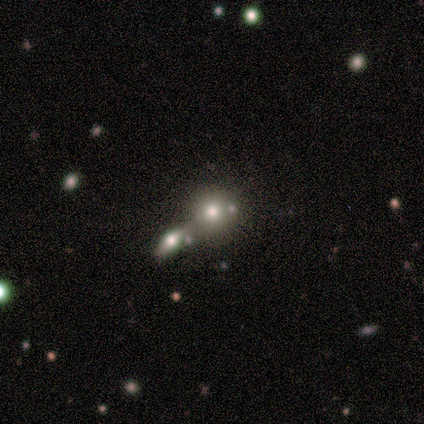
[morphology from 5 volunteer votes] smooth_or_featured: smooth (p=0.60) [alt: featured or disk p=0.20]
how_rounded: round (p=0.67) [alt: in between p=0.33]
merging: merger (p=0.50) [alt: none p=0.25]